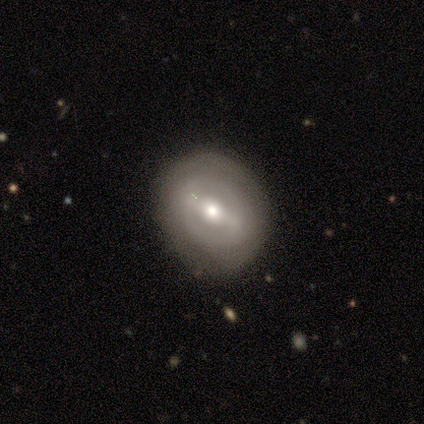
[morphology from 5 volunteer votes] Overall: featured or disk (80%). Edge-on disk: no (100%). Bar: strong (50%, tied with weak). Spiral arms: yes (75%). Spiral arm count: 2 (67%; can't tell 33%). Spiral winding: tight (67%; medium 33%). Bulge size: moderate (75%). Merging: none (100%).